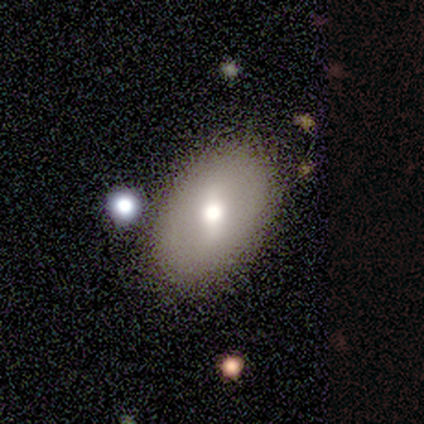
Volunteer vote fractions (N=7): Morphology: type=smooth (57%); roundness=in between (100%); merging=none (100%).